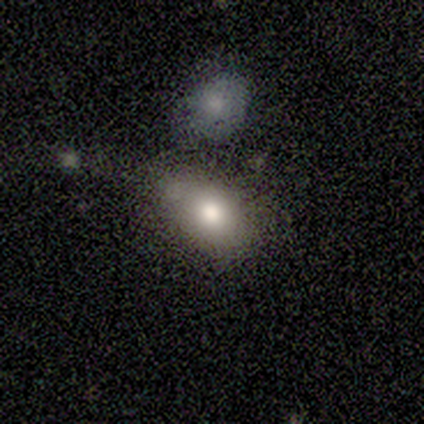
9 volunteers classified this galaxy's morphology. smooth-or-featured: smooth: 100% | featured or disk: 0% | star or artifact: 0%
  how-rounded: in between: 89% | round: 11% | cigar-shaped: 0%
  merging: minor disturbance: 44% | none: 33% | merger: 22% | major disturbance: 0%